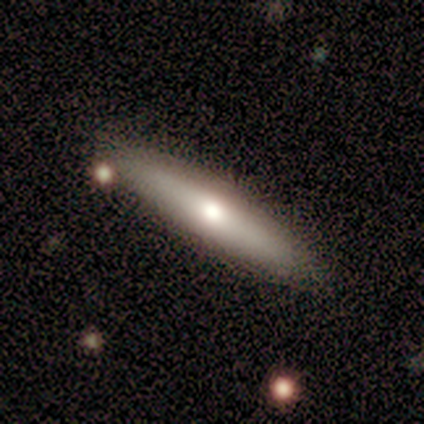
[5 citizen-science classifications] Overall: smooth (60%; featured or disk 40%). How rounded: cigar-shaped (100%). Merging: none (100%).